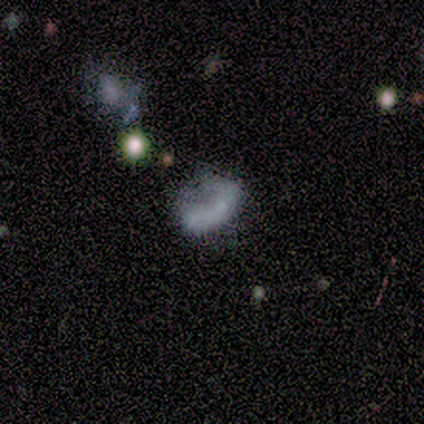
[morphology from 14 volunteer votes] smooth 57%, featured or disk 21%, star or artifact 21%. Down the decision tree: how rounded — in between (88%); merging — major disturbance (45%).